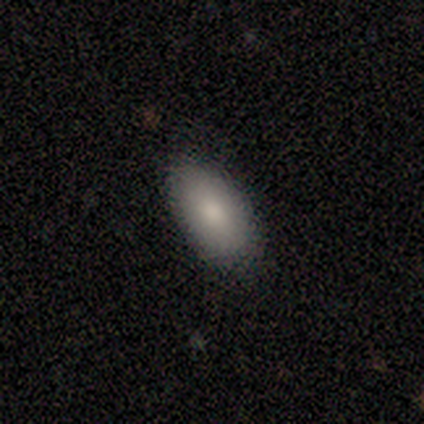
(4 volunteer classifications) smooth-or-featured: smooth: 100% | featured or disk: 0% | star or artifact: 0%
  how-rounded: in between: 100% | round: 0% | cigar-shaped: 0%
  merging: none: 75% | minor disturbance: 25% | major disturbance: 0% | merger: 0%